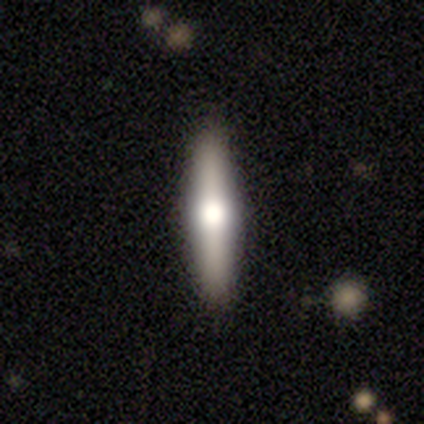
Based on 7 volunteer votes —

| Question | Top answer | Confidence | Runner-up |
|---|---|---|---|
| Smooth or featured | featured or disk | 57% | smooth (29%) |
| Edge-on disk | yes | 100% | — |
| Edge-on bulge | rounded | 100% | — |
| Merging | none | 67% | minor disturbance (33%) |